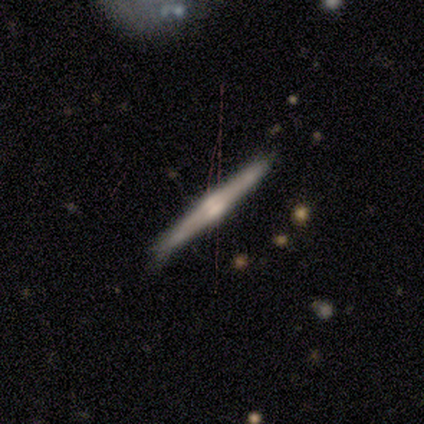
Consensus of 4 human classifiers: Overall: smooth (50%, tied with featured or disk). How rounded: in between (50%, tied with cigar-shaped). Merging: minor disturbance (50%; none 25%).